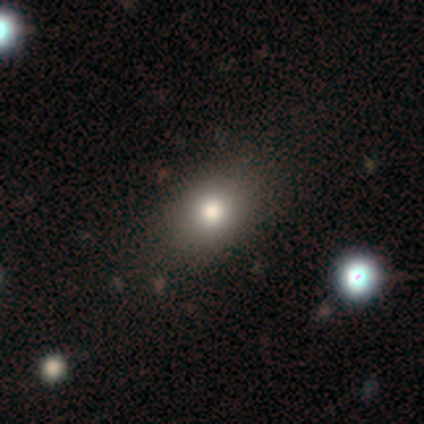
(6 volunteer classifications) smooth-or-featured: smooth: 100% | featured or disk: 0% | star or artifact: 0%
  how-rounded: round: 50% (tied) | in between: 50% (tied) | cigar-shaped: 0%
  merging: none: 83% | minor disturbance: 17% | major disturbance: 0% | merger: 0%